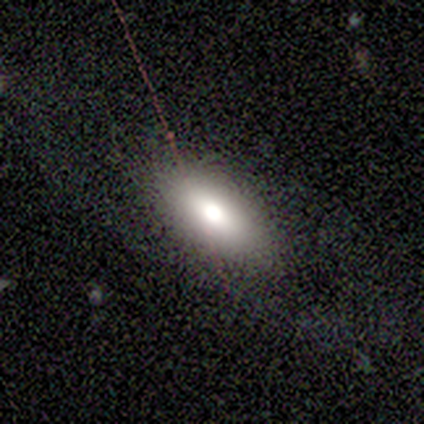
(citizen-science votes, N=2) smooth 50% (tied), featured or disk 50% (tied), star or artifact 0%. Down the decision tree: how rounded — in between (100%); merging — none (50%, tied with major disturbance).